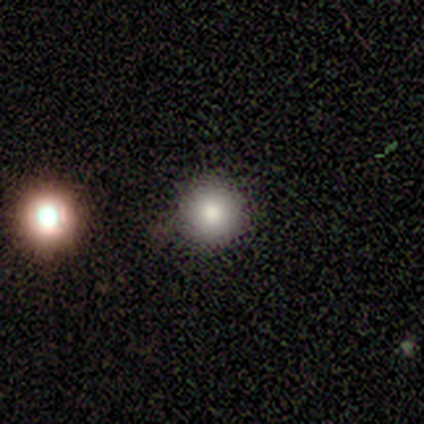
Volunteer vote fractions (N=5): Smooth or featured? 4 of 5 (80%) said smooth. How rounded? 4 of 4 (100%) said round. Merging? 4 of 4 (100%) said none.